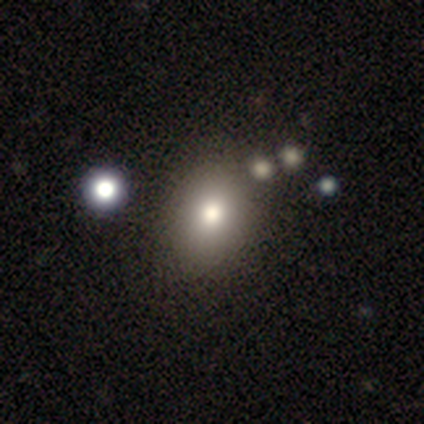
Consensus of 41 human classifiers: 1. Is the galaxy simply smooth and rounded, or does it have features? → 83% smooth, 12% featured or disk, 5% star or artifact.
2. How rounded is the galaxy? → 71% in between, 29% round, 0% cigar-shaped.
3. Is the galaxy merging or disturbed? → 85% none, 8% merger, 5% minor disturbance, 3% major disturbance.